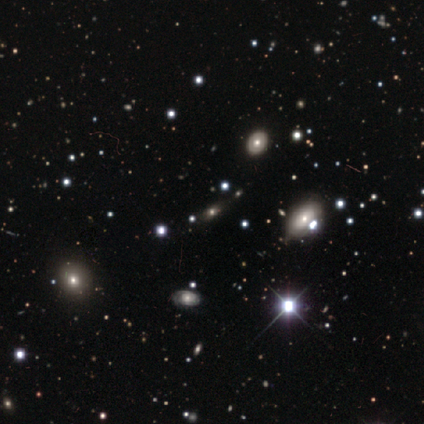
Morphology: type=star or artifact (83%).